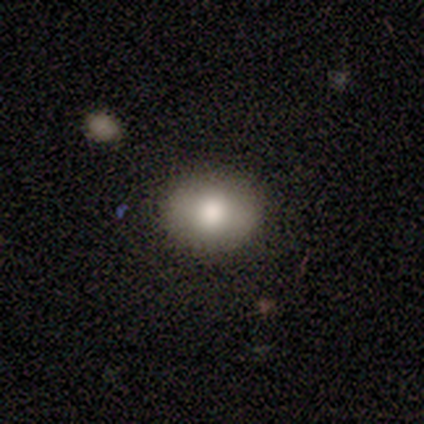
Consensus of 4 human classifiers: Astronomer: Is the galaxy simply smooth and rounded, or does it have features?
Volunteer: smooth — 100%.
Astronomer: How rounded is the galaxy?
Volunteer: in between — 100%.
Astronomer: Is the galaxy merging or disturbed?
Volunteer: none — 75%.